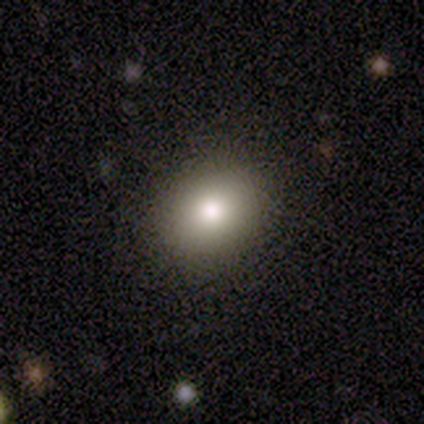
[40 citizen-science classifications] Volunteers were most divided on "how rounded": round: 67%, in between: 33%, cigar-shaped: 0%. More confident: merging — none (94%); smooth or featured — smooth (82%).